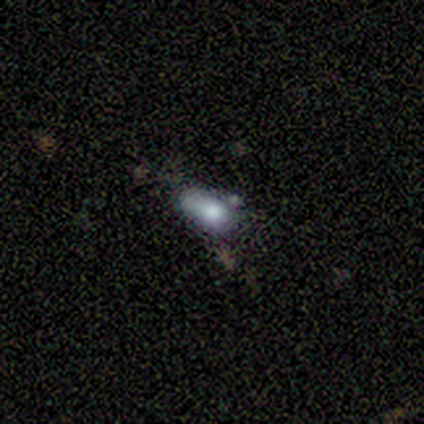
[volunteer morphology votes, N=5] smooth 60%, featured or disk 20%, star or artifact 20%. Down the decision tree: how rounded — in between (100%); merging — minor disturbance (75%).